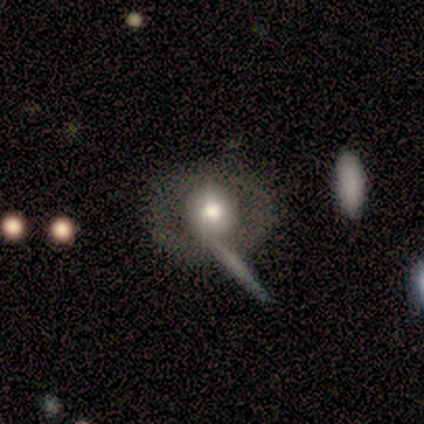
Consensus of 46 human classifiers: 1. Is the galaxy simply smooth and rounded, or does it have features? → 57% featured or disk, 39% smooth, 4% star or artifact.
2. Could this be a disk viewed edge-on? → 96% no, 4% yes.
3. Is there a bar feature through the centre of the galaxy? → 92% no, 4% strong, 4% weak.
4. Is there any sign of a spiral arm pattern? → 76% no, 24% yes.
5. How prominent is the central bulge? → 60% moderate, 36% large, 4% small, 0% dominant, 0% none.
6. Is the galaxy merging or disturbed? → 52% none, 25% merger, 14% minor disturbance, 9% major disturbance.